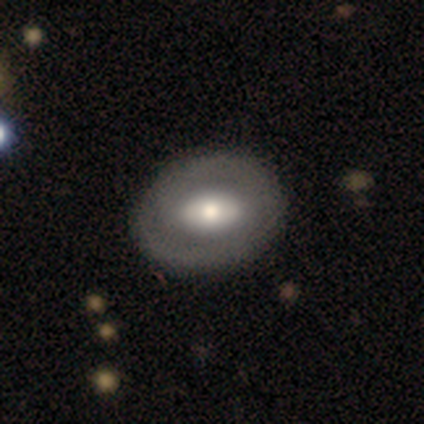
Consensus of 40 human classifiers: Smooth or featured?
  - smooth: 50% *
  - featured or disk: 48%
  - star or artifact: 2%
How rounded?
  - in between: 60% *
  - round: 40%
  - cigar-shaped: 0%
Merging?
  - none: 62% *
  - minor disturbance: 13%
  - merger: 3%
  - major disturbance: 0%